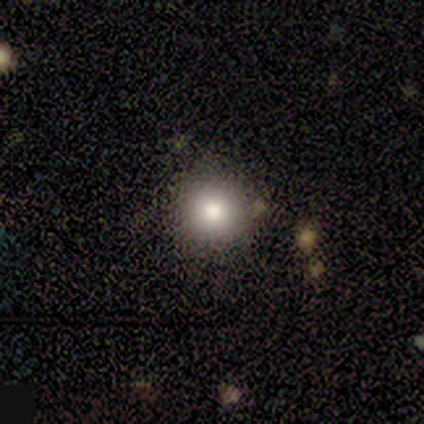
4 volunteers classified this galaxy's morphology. Smooth or featured? smooth (75%)
How rounded? round (100%)
Merging? none (67%)